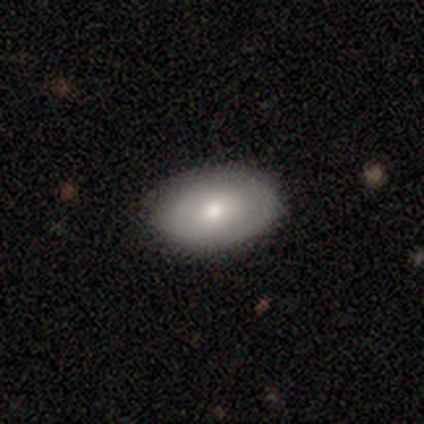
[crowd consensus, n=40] Smooth or featured? 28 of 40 (70%) said smooth. How rounded? 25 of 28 (89%) said in between. Merging? 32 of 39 (82%) said none.